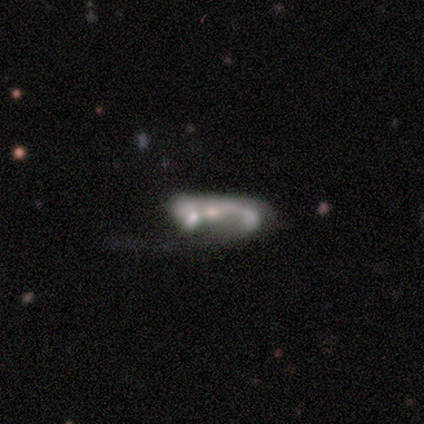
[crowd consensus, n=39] Overall: featured or disk (69%). Edge-on disk: no (96%). Bar: no (88%). Spiral arms: no (65%; yes 35%). Bulge size: none (46%; small 27%). Merging: merger (42%; major disturbance 17%).